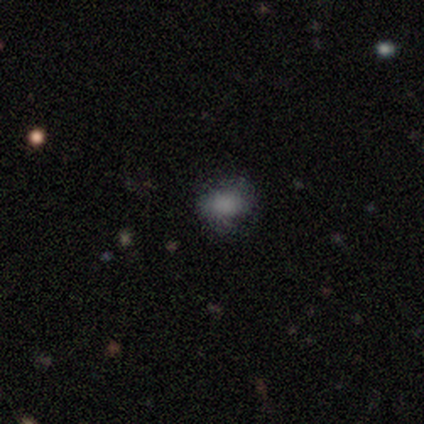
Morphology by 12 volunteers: This appears to be a smooth galaxy with no disk features (75%) that is round (67%). Merging: none (70%).